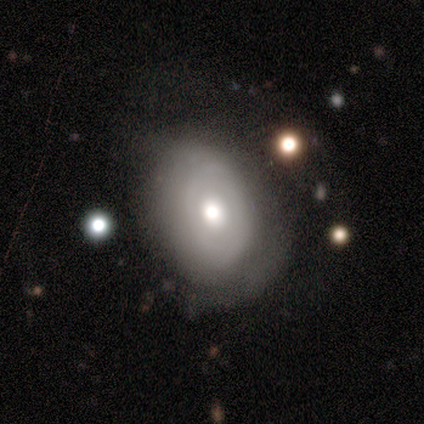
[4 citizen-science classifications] smooth_or_featured: smooth (p=0.50) [tied with: featured or disk p=0.50]
how_rounded: round (p=0.50) [tied with: in between p=0.50]
merging: none (p=0.75) [alt: minor disturbance p=0.25]